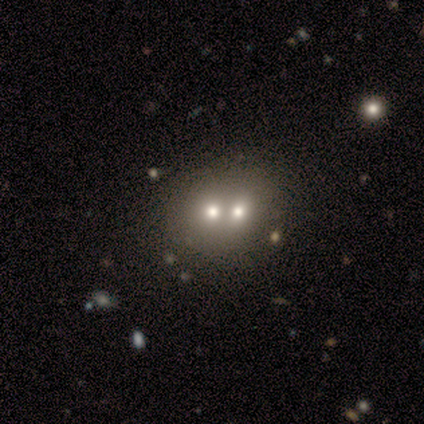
featured or disk 60%, smooth 40%, star or artifact 0%. Down the decision tree: edge-on disk — no (100%); bar — no (100%); spiral arms — no (100%); bulge size — moderate (67%); merging — none (80%).